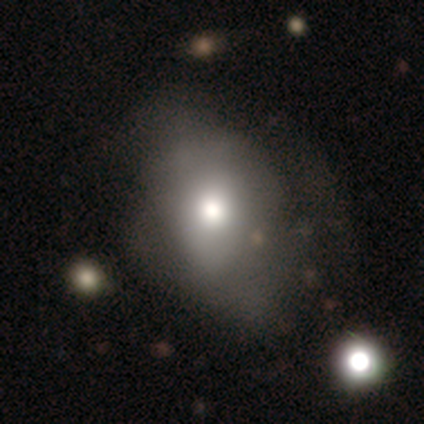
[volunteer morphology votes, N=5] Smooth or featured? 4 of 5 (80%) said smooth. How rounded? 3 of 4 (75%) said in between. Merging? 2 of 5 (40%) said none.